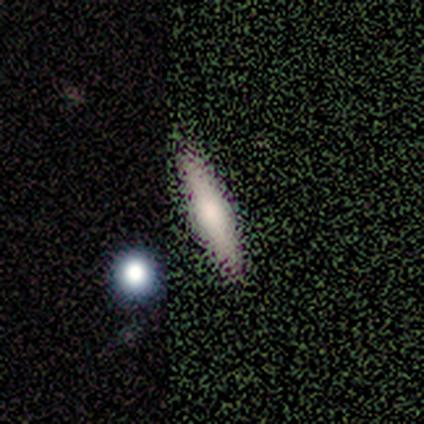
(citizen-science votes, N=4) featured or disk 75%, smooth 25%, star or artifact 0%. Down the decision tree: edge-on disk — yes (100%); edge-on bulge — rounded (100%); merging — none (100%).